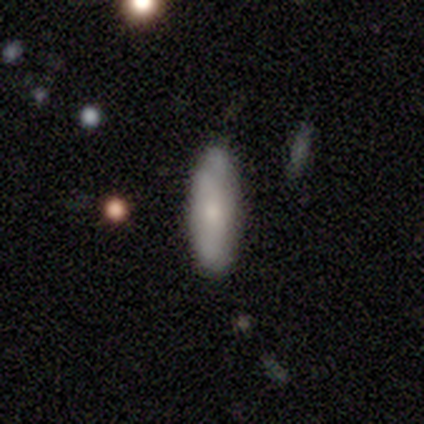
smooth 60%, featured or disk 40%, star or artifact 0%. Down the decision tree: how rounded — in between (67%); merging — none (80%).